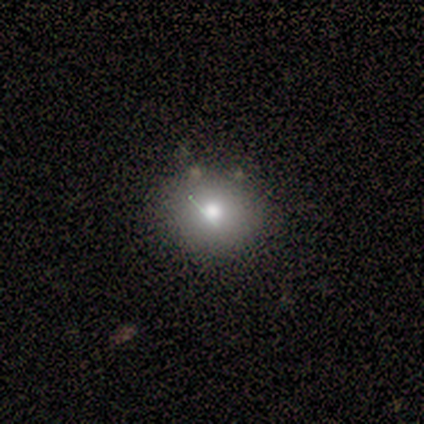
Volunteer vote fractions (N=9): This is clearly a smooth galaxy (89%). How rounded: possibly round (50%, tied with in between). Merging: likely none (78%).